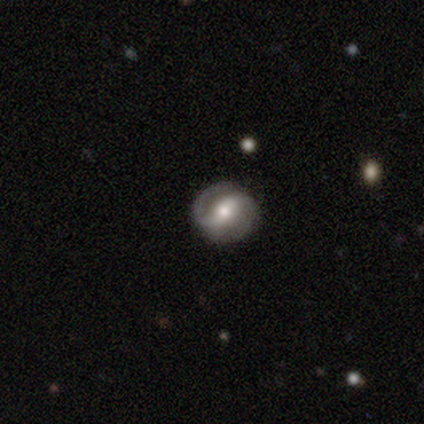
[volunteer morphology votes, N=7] A featured or disk galaxy (100%) with a strong bar (57%), 2 (86%) tight (57%) spiral arms (100%) and a moderate central bulge (71%).

Vote fractions:
- Smooth or featured? featured or disk: 100% / smooth: 0% / star or artifact: 0%
- Edge-on disk? no: 100% / yes: 0%
- Bar? strong: 57% / no: 29% / weak: 14%
- Spiral arms? yes: 100% / no: 0%
- Spiral winding? tight: 57% / loose: 43% / medium: 0%
- Spiral arm count? 2: 86% / can't tell: 14% / 1: 0% / 3: 0% / 4: 0% / more than 4: 0%
- Bulge size? moderate: 71% / small: 29% / dominant: 0% / large: 0% / none: 0%
- Merging? none: 100% / minor disturbance: 0% / major disturbance: 0% / merger: 0%